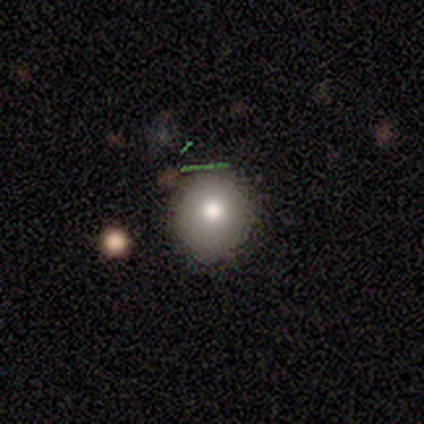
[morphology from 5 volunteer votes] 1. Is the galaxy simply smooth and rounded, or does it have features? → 80% smooth, 20% featured or disk, 0% star or artifact.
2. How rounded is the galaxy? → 100% round, 0% in between, 0% cigar-shaped.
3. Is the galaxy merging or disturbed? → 100% none, 0% minor disturbance, 0% major disturbance, 0% merger.